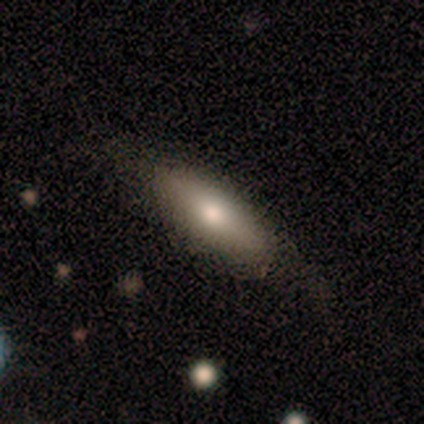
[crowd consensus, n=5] This appears to be a smooth galaxy with no disk features (100%) that is in between round and cigar-shaped (60%). Merging: none (60%).